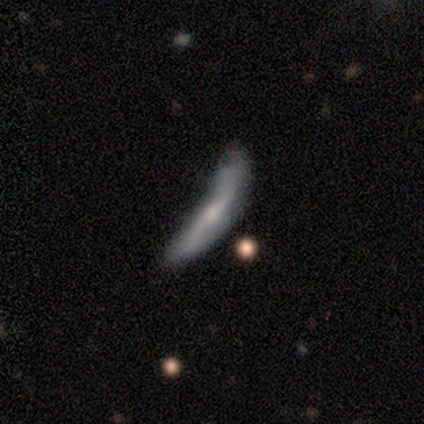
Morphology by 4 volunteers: This is possibly a smooth galaxy (50%, tied with featured or disk). How rounded: possibly in between (50%, tied with cigar-shaped). Merging: possibly minor disturbance (50%).